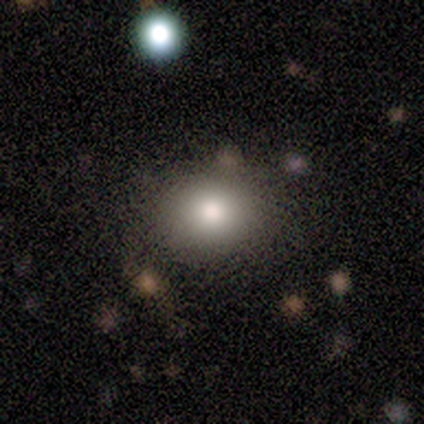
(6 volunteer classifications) Smooth or featured? 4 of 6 (67%) said smooth. How rounded? 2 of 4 (50%, tied with in between) said round. Merging? 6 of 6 (100%) said none.